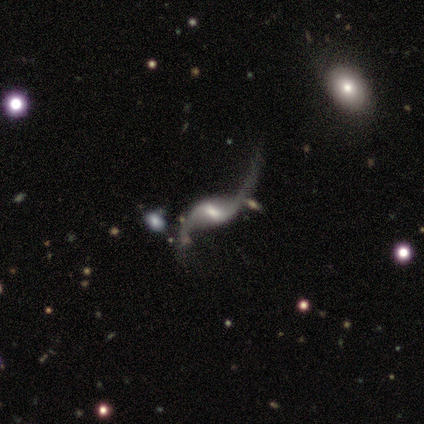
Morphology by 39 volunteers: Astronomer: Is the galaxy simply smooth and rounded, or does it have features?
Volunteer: featured or disk — 90%.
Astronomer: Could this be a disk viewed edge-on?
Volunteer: no — 97%.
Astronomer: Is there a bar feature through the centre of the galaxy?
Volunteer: weak — 62%.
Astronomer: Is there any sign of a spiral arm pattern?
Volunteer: yes — 97%.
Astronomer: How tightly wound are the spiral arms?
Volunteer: loose — 97%.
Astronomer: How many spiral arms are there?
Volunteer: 2 — 91%.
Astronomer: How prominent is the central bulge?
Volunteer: small — 50% (runner-up: moderate, 38%).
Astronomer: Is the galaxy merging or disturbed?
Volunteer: none — 47% (runner-up: minor disturbance, 25%).